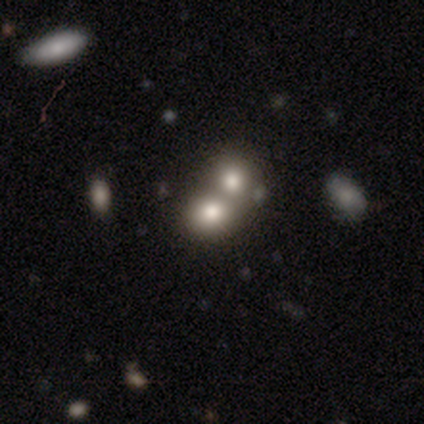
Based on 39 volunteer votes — This appears to be a smooth galaxy with no disk features (74%) that is round (55%). Merging: merger (67%).